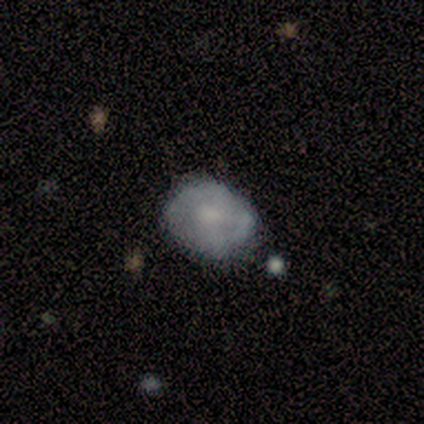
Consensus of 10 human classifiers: A smooth galaxy with no disk features (60%) that is round (67%). Merging: none (80%).